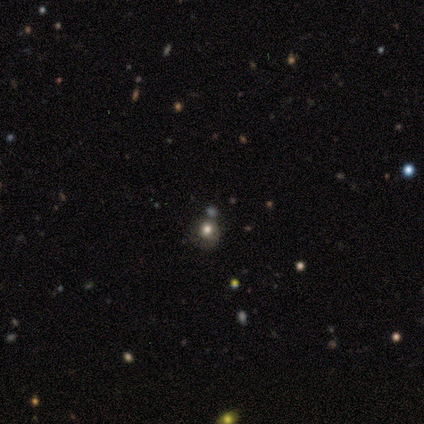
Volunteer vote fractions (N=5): smooth-or-featured: smooth: 80% | star or artifact: 20% | featured or disk: 0%
  how-rounded: round: 50% (tied) | in between: 50% (tied) | cigar-shaped: 0%
  merging: none: 25% (tied) | minor disturbance: 25% (tied) | major disturbance: 25% (tied) | merger: 25% (tied)